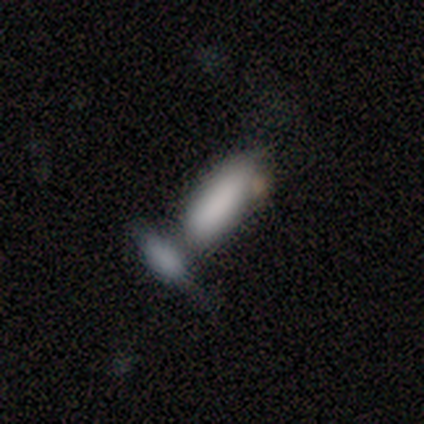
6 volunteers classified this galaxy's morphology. smooth_or_featured: smooth (p=0.83) [alt: featured or disk p=0.17]
how_rounded: in between (p=1.00)
merging: none (p=0.33) [tied with: merger p=0.33]